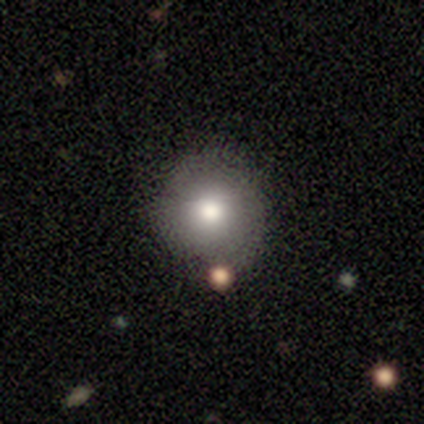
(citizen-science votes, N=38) Volunteers were most divided on "smooth or featured": smooth: 74%, featured or disk: 13%, star or artifact: 13%. More confident: how rounded — round (100%); merging — none (91%).